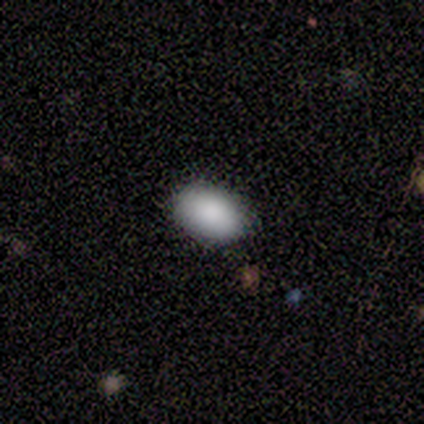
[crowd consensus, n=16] Smooth or featured: smooth — 94% (star or artifact — 6%)
How rounded: in between — 93% (round — 7%)
Merging: none — 87% (minor disturbance — 13%)